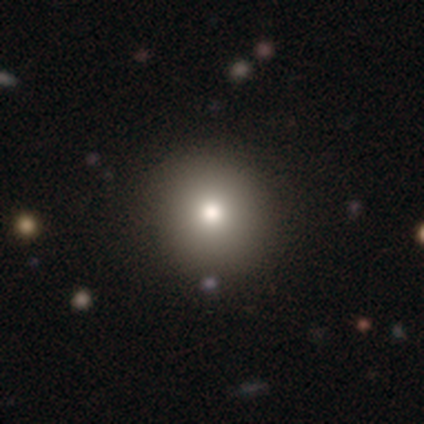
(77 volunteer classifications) smooth 79%, star or artifact 12%, featured or disk 9%. Down the decision tree: how rounded — round (97%); merging — none (46%).